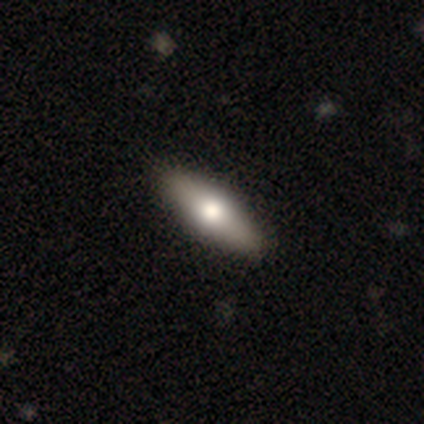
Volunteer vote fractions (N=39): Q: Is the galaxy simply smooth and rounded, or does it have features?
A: smooth — 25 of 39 (64%).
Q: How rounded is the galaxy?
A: in between — 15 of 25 (60%).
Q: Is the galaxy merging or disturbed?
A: none — 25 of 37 (68%).